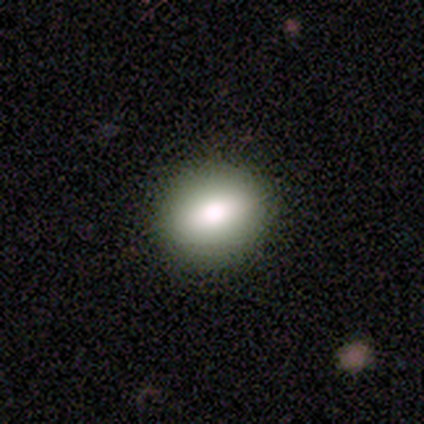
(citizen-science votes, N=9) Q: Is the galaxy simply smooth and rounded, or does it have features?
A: smooth — 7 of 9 (78%).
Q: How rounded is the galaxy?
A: round — 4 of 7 (57%).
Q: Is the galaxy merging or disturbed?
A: none — 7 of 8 (88%).